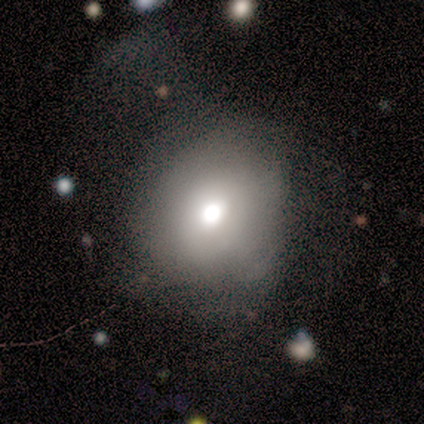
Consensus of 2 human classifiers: smooth_or_featured: smooth (p=0.50) [tied with: featured or disk p=0.50]
how_rounded: round (p=1.00)
merging: none (p=1.00)